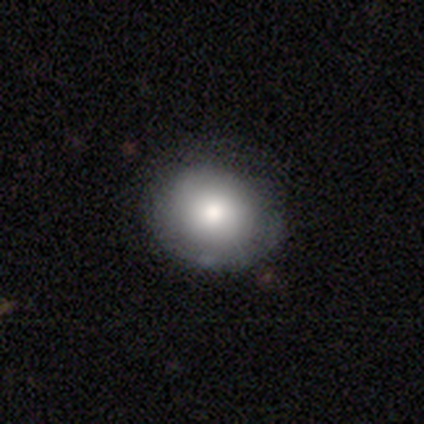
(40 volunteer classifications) This is likely a smooth galaxy (68%). How rounded: likely round (70%). Merging: likely none (72%).